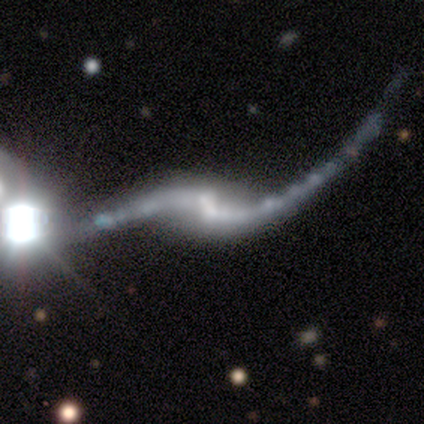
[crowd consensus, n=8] featured or disk 88%, star or artifact 12%, smooth 0%. Down the decision tree: edge-on disk — no (100%); bar — weak (57%); spiral arms — yes (100%); spiral arm count — 2 (100%); spiral winding — loose (71%); bulge size — none (43%); merging — none (43%, tied with minor disturbance).